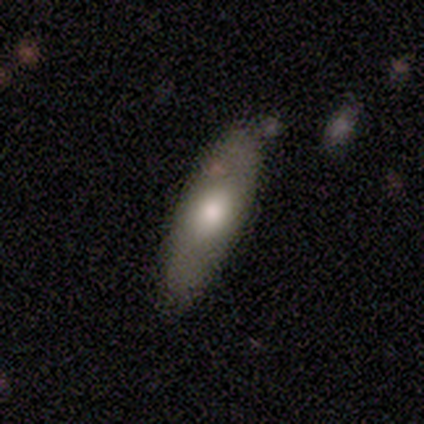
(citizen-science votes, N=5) Smooth or featured? smooth (60%)
How rounded? in between (100%)
Merging? none (75%)